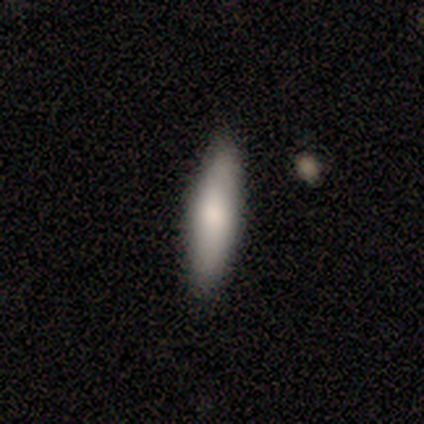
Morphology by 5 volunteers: smooth 80%, star or artifact 20%, featured or disk 0%. Down the decision tree: how rounded — cigar-shaped (75%); merging — none (75%).